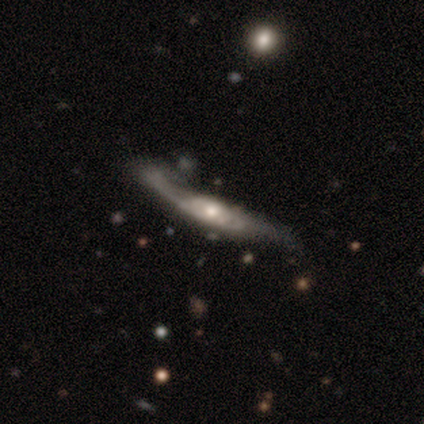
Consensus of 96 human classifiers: A featured or disk galaxy (78%) viewed edge-on (52%) with a rounded central bulge (79%). Merging: major disturbance (41%).